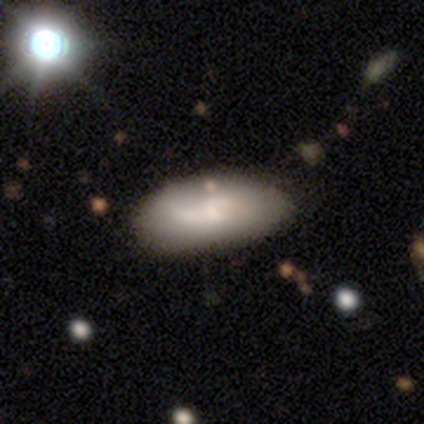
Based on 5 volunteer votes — smooth_or_featured: smooth (p=0.60) [alt: featured or disk p=0.20]
how_rounded: in between (p=1.00)
merging: none (p=0.75) [alt: minor disturbance p=0.25]